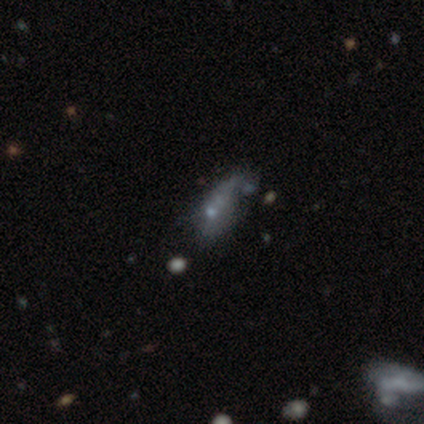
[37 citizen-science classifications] Smooth or featured?
  - featured or disk: 43% *
  - smooth: 41%
  - star or artifact: 16%
Edge-on disk?
  - no: 88% *
  - yes: 12%
Bar?
  - no: 100% *
  - strong: 0%
  - weak: 0%
Spiral arms?
  - no: 86% *
  - yes: 14%
Bulge size?
  - none: 43% *
  - small: 36%
  - moderate: 14%
  - dominant: 7%
  - large: 0%
Merging?
  - none: 39% *
  - minor disturbance: 23%
  - merger: 23%
  - major disturbance: 16%